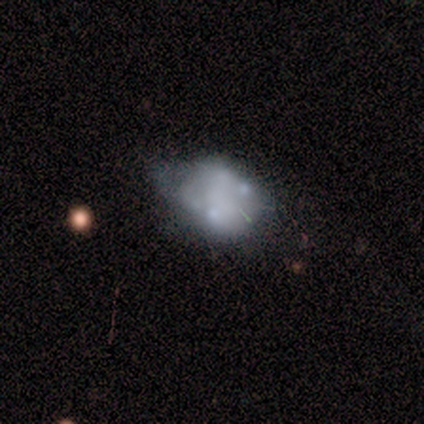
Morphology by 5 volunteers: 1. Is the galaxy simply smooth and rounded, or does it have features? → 60% smooth, 40% featured or disk, 0% star or artifact.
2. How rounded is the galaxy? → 100% in between, 0% round, 0% cigar-shaped.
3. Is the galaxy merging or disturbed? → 40% minor disturbance, 20% none, 20% major disturbance, 20% merger.